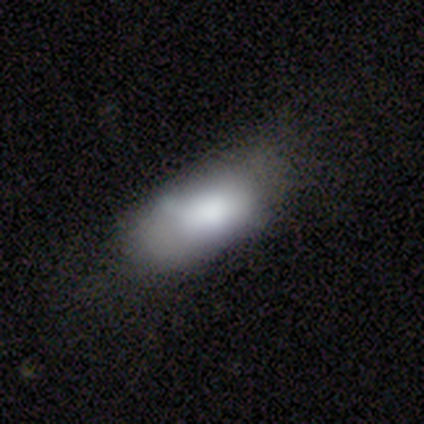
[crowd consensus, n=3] Smooth or featured: smooth — 67% (featured or disk — 33%)
How rounded: in between — 100%
Merging: none — 33% (tied with minor disturbance — 33%; major disturbance — 33%)